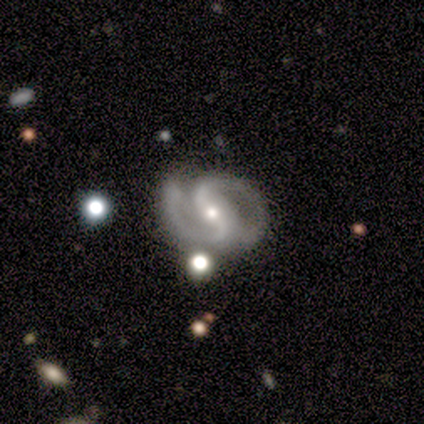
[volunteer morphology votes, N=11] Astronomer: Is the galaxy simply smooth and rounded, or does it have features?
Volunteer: featured or disk — 100%.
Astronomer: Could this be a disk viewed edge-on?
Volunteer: no — 100%.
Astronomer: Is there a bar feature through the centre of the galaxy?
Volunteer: strong — 45%, tied with no at 45%.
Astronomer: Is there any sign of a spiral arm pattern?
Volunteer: yes — 100%.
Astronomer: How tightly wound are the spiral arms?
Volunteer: medium — 73%.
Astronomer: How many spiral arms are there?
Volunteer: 2 — 100%.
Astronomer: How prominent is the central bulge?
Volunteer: moderate — 55% (runner-up: small, 45%).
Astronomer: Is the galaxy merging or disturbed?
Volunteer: none — 82%.